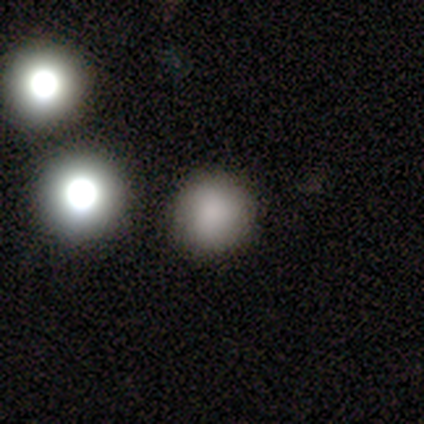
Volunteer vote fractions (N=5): A smooth galaxy with no disk features (100%) that is round (100%). Merging: none (100%).